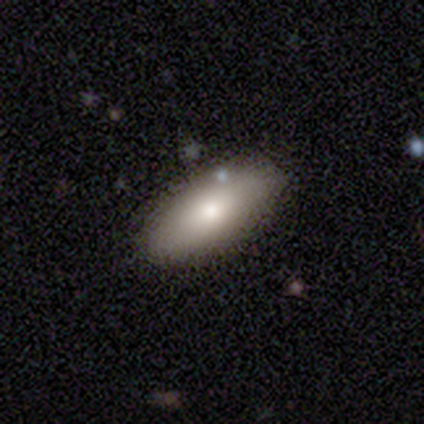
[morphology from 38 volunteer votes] Volunteers were most divided on "smooth or featured": smooth: 66%, featured or disk: 26%, star or artifact: 8%. More confident: how rounded — in between (88%); merging — none (74%).